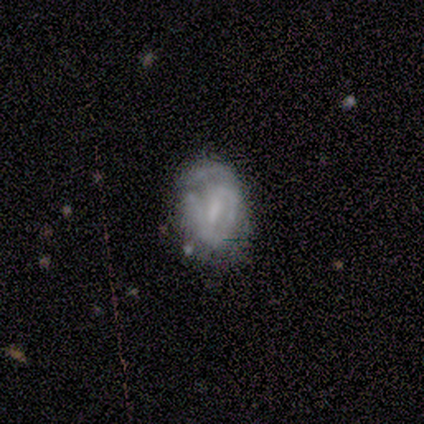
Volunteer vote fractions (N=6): smooth-or-featured: smooth: 50% (tied) | featured or disk: 50% (tied) | star or artifact: 0%
  how-rounded: in between: 100% | round: 0% | cigar-shaped: 0%
  merging: none: 67% | minor disturbance: 17% | major disturbance: 17% | merger: 0%